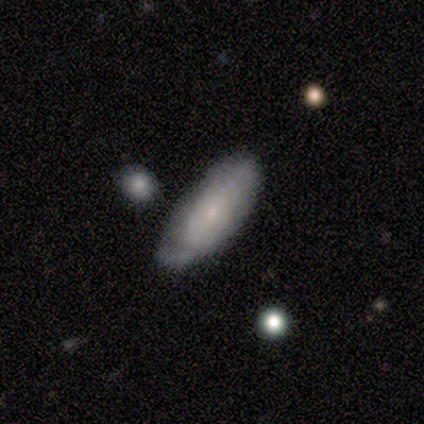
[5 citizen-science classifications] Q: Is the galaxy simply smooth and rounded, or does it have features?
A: featured or disk — 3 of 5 (60%).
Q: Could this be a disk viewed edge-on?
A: no — 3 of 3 (100%).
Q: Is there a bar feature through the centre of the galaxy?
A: no — 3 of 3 (100%).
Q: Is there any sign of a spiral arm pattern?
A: yes — 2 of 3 (67%).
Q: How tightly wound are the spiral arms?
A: medium — 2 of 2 (100%).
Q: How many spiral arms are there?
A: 1 — 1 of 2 (50%, tied with 2).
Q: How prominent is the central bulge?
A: small — 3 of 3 (100%).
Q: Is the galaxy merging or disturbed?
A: none — 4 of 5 (80%).